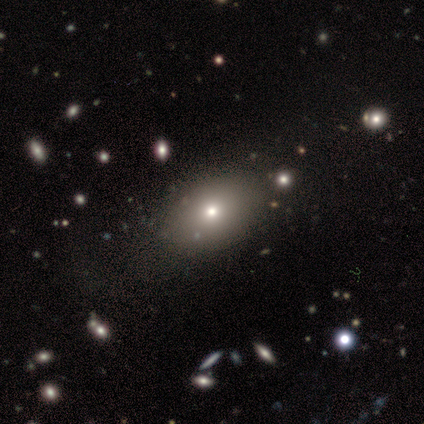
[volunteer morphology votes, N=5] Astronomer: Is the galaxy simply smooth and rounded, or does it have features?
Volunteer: smooth — 80%.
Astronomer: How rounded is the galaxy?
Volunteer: in between — 75%.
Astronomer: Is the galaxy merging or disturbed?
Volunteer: none — 100%.